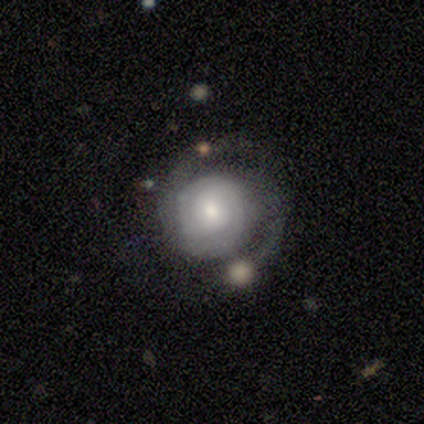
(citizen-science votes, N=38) Q: Smooth or featured?
A: featured or disk (82%); runner-up: smooth (18%)
Q: Edge-on disk?
A: no (100%)
Q: Bar?
A: no (74%); runner-up: weak (23%)
Q: Spiral arms?
A: yes (94%); runner-up: no (6%)
Q: Spiral winding?
A: tight (62%); runner-up: medium (28%)
Q: Spiral arm count?
A: 2 (76%); runner-up: can't tell (24%)
Q: Bulge size?
A: small (52%); runner-up: moderate (35%)
Q: Merging?
A: none (66%); runner-up: minor disturbance (13%)